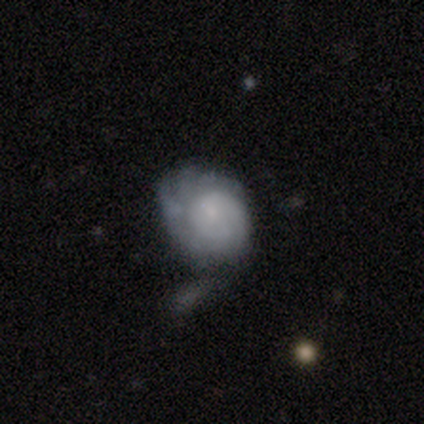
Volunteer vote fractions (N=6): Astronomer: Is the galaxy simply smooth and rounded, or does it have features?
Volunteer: smooth — 50% (runner-up: featured or disk, 33%).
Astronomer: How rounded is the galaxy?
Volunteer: in between — 67%.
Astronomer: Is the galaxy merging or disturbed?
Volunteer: minor disturbance — 60%.